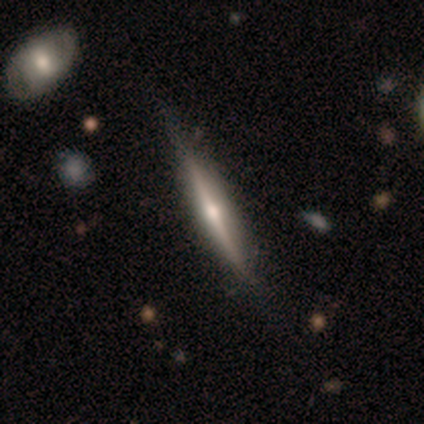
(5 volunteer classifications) This is likely a featured or disk galaxy (60%). It is clearly viewed edge-on (100%). Edge-on bulge: clearly rounded (100%). Merging: clearly none (80%).